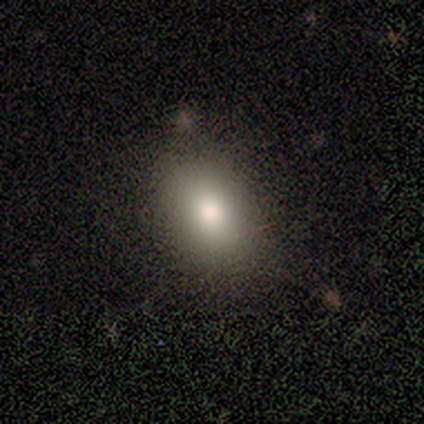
A smooth galaxy with no disk features (100%) that is in between round and cigar-shaped (86%). Merging: none (71%).